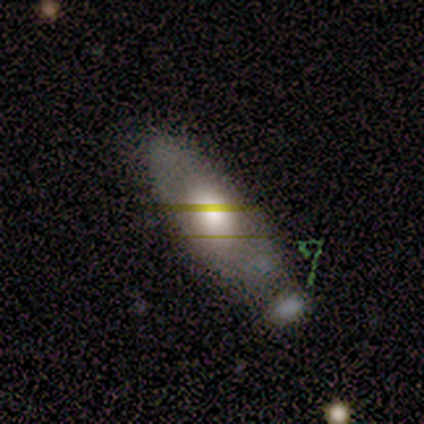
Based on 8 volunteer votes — Volunteers were most divided on "merging": minor disturbance: 57%, none: 29%, major disturbance: 14%, merger: 0%. More confident: smooth or featured — smooth (88%); how rounded — in between (86%).